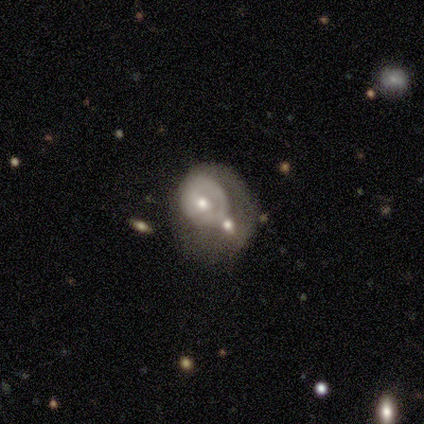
smooth-or-featured: featured or disk: 74% | smooth: 19% | star or artifact: 7%
  disk-edge-on: no: 97% | yes: 3%
    bar: no: 93% | weak: 7% | strong: 0%
    has-spiral-arms: no: 60% | yes: 40%
    bulge-size: moderate: 77% | small: 20% | none: 3% | dominant: 0% | large: 0%
  merging: major disturbance: 33% | none: 31% | merger: 26% | minor disturbance: 10%